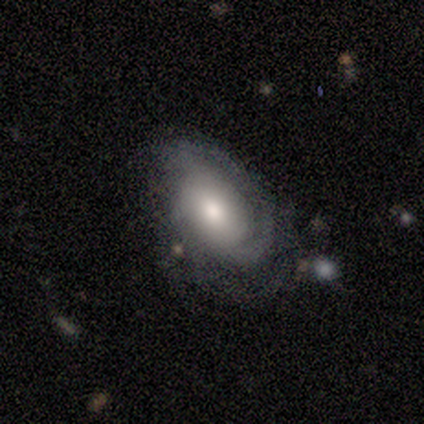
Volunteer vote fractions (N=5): Morphology: type=featured or disk (60%); edge-on=no (100%); bar=weak (100%); spiral arms=yes (100%); winding=tight (33%, tied with medium and loose); arm count=3 (67%); bulge=large (33%, tied with moderate and small); merging=none (100%).